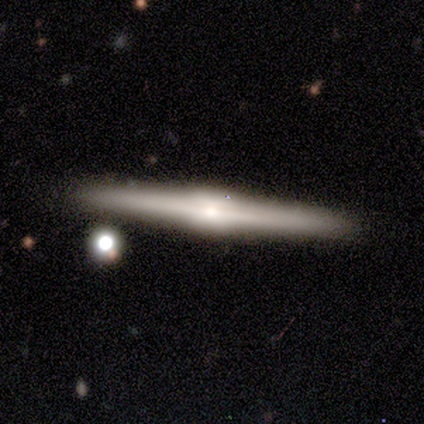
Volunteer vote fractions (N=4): Volunteers were most divided on "smooth or featured": featured or disk: 75%, smooth: 25%, star or artifact: 0%. More confident: edge-on disk — yes (100%); edge-on bulge — rounded (100%); merging — none (100%).